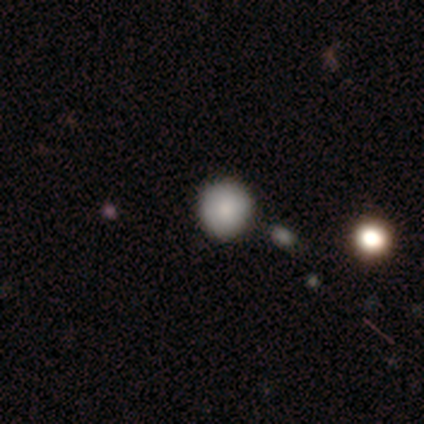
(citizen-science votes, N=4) Smooth or featured: smooth — 75% (star or artifact — 25%)
How rounded: round — 100%
Merging: none — 100%